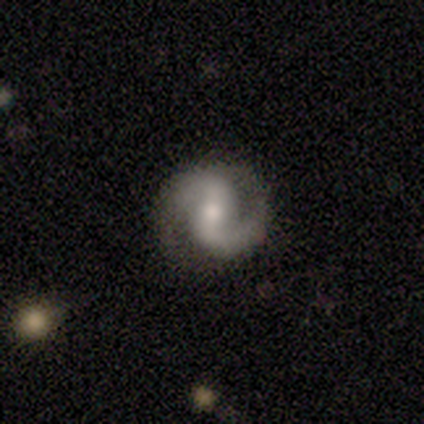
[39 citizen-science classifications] A featured or disk galaxy (87%) with a weak bar (53%), 2 (100%) medium (53%) spiral arms (100%) and a moderate central bulge (59%).

Vote fractions:
- Smooth or featured? featured or disk: 87% / smooth: 8% / star or artifact: 5%
- Edge-on disk? no: 100% / yes: 0%
- Bar? weak: 53% / strong: 26% / no: 21%
- Spiral arms? yes: 100% / no: 0%
- Spiral winding? medium: 53% / loose: 32% / tight: 15%
- Spiral arm count? 2: 100% / 1: 0% / 3: 0% / 4: 0% / more than 4: 0% / can't tell: 0%
- Bulge size? moderate: 59% / small: 26% / large: 15% / dominant: 0% / none: 0%
- Merging? none: 84% / minor disturbance: 11% / major disturbance: 5% / merger: 0%